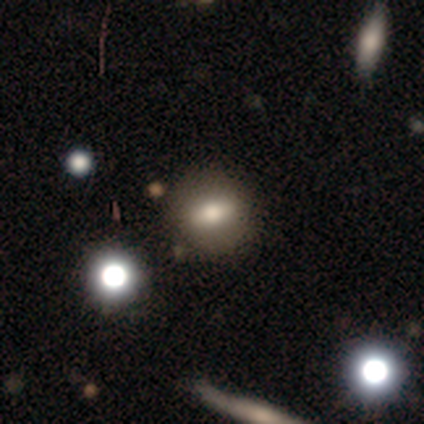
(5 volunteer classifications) A smooth galaxy with no disk features (60%) that is in between round and cigar-shaped (67%).

Vote fractions:
- Smooth or featured? smooth: 60% / featured or disk: 40% / star or artifact: 0%
- How rounded? in between: 67% / round: 33% / cigar-shaped: 0%
- Merging? none: 80% / major disturbance: 20% / minor disturbance: 0% / merger: 0%